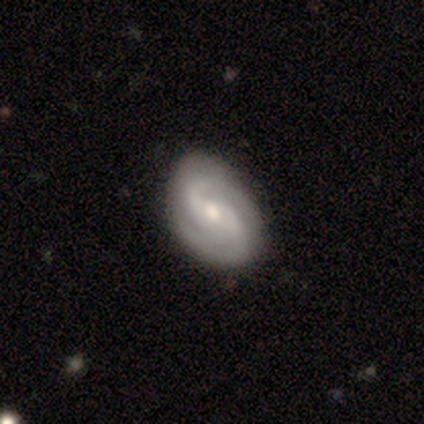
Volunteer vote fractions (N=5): Smooth or featured? 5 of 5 (100%) said featured or disk. Edge-on disk? 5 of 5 (100%) said no. Bar? 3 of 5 (60%) said weak. Spiral arms? 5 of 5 (100%) said yes. Spiral winding? 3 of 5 (60%) said medium. Spiral arm count? 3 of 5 (60%) said 2. Bulge size? 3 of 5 (60%) said moderate. Merging? 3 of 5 (60%) said none.